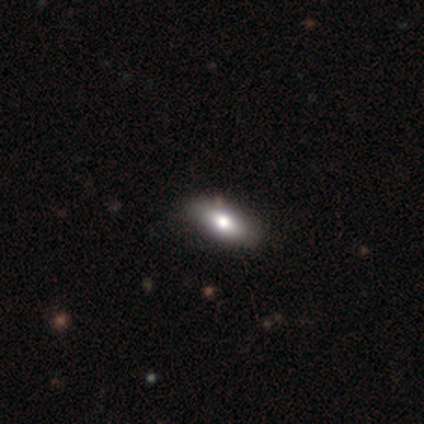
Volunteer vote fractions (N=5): Overall: smooth (80%). How rounded: in between (50%, tied with cigar-shaped). Merging: none (75%).